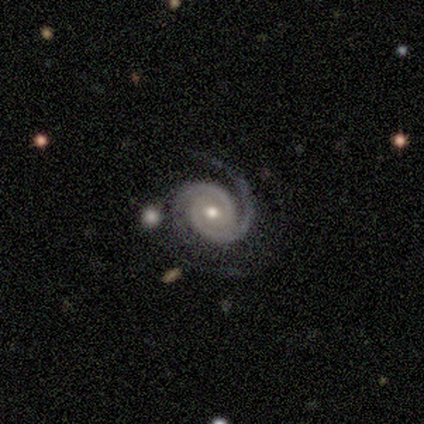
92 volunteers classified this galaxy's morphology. type=featured or disk (93%); edge-on=no (98%); bar=no (61%); spiral arms=yes (99%); winding=tight (63%); arm count=2 (89%); bulge=moderate (71%); merging=none (63%).